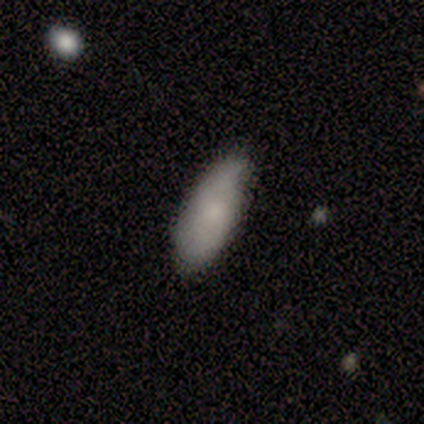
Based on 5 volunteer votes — Smooth or featured? 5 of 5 (100%) said smooth. How rounded? 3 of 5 (60%) said in between. Merging? 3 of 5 (60%) said minor disturbance.